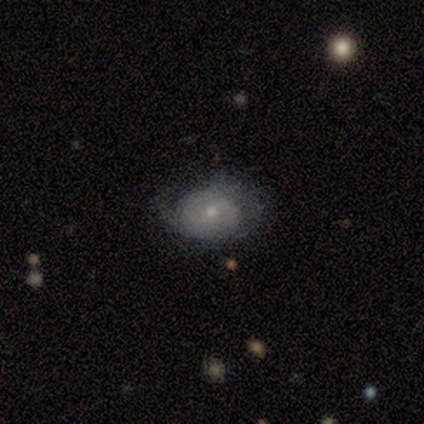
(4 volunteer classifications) smooth_or_featured: featured or disk (p=0.75) [alt: smooth p=0.25]
disk_edge_on: no (p=1.00)
bar: no (p=1.00)
has_spiral_arms: yes (p=0.67) [alt: no p=0.33]
spiral_winding: medium (p=0.50) [tied with: loose p=0.50]
spiral_arm_count: 1 (p=0.50) [tied with: can't tell p=0.50]
bulge_size: small (p=0.67) [alt: moderate p=0.33]
merging: none (p=0.75) [alt: minor disturbance p=0.25]